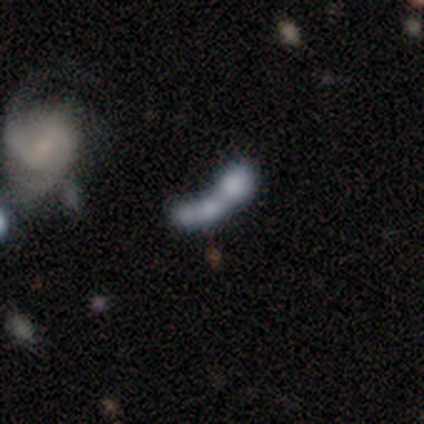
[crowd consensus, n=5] This is marginally a smooth galaxy (40%, tied with featured or disk). How rounded: possibly round (50%, tied with cigar-shaped). Merging: likely merger (75%).